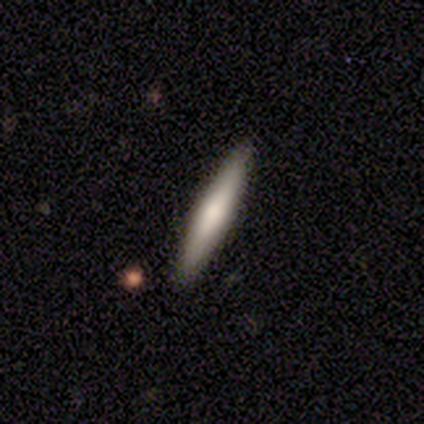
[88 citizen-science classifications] Smooth or featured?
  - smooth: 69% *
  - featured or disk: 26%
  - star or artifact: 5%
How rounded?
  - cigar-shaped: 97% *
  - in between: 3%
  - round: 0%
Merging?
  - none: 92% *
  - minor disturbance: 6%
  - merger: 2%
  - major disturbance: 0%